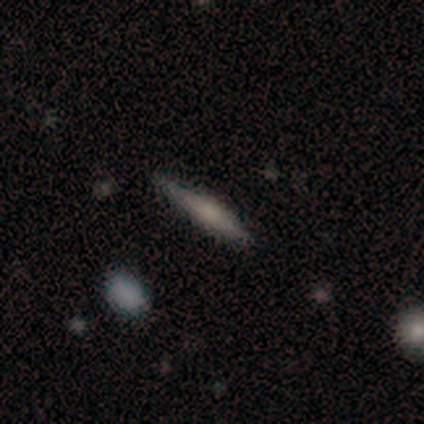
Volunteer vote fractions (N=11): smooth 45% (tied), featured or disk 45% (tied), star or artifact 9%. Down the decision tree: how rounded — cigar-shaped (100%); merging — none (80%).